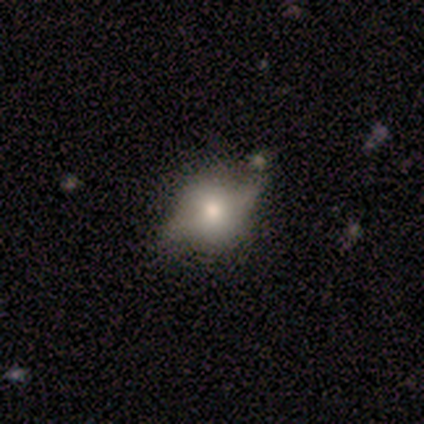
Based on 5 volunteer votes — smooth_or_featured: smooth (p=0.80) [alt: featured or disk p=0.20]
how_rounded: round (p=0.50) [tied with: in between p=0.50]
merging: none (p=0.40) [tied with: minor disturbance p=0.40]